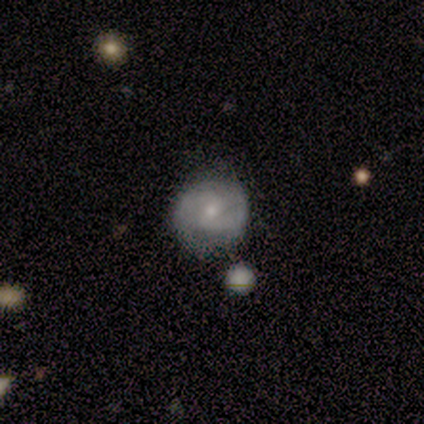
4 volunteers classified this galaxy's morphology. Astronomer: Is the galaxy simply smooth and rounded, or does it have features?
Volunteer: featured or disk — 50%.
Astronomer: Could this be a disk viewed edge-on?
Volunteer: no — 100%.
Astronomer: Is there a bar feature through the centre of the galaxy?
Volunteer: strong — 50%, tied with weak at 50%.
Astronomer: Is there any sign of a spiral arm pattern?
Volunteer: yes — 100%.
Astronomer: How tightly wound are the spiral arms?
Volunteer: medium — 100%.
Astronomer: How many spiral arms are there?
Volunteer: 2 — 100%.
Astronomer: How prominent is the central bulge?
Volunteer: moderate — 50%, tied with small at 50%.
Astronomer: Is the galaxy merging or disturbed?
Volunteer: none — 67%.